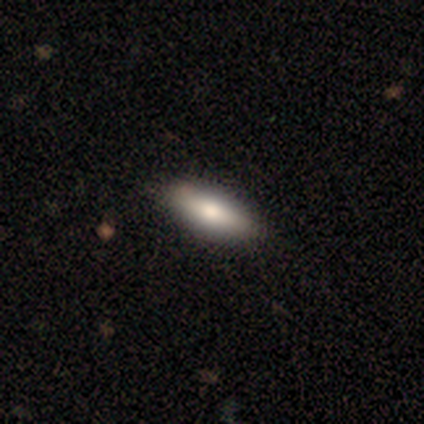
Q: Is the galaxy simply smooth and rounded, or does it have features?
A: smooth — 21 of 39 (54%).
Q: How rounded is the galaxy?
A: in between — 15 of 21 (71%).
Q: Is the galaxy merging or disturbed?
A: none — 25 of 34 (74%).